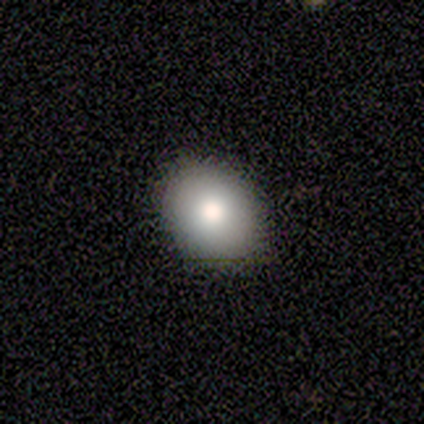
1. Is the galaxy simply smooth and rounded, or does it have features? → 79% smooth, 13% featured or disk, 8% star or artifact.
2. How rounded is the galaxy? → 65% in between, 35% round, 0% cigar-shaped.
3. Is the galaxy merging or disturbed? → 81% none, 3% major disturbance, 0% minor disturbance, 0% merger.